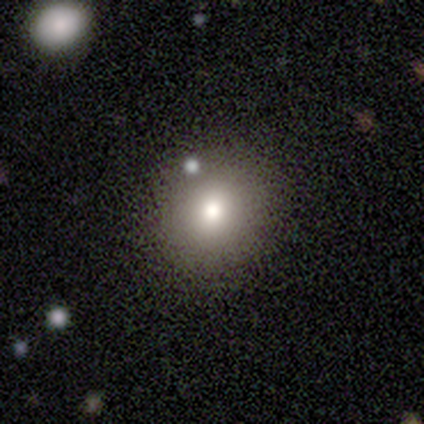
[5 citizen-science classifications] A smooth galaxy with no disk features (80%) that is round (100%).

Vote fractions:
- Smooth or featured? smooth: 80% / star or artifact: 20% / featured or disk: 0%
- How rounded? round: 100% / in between: 0% / cigar-shaped: 0%
- Merging? none: 100% / minor disturbance: 0% / major disturbance: 0% / merger: 0%